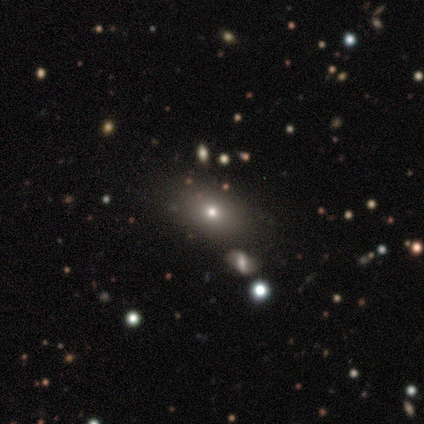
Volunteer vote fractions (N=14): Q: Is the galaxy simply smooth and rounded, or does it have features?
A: smooth — 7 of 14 (50%).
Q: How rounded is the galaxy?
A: in between — 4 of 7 (57%).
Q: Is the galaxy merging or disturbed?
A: none — 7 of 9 (78%).